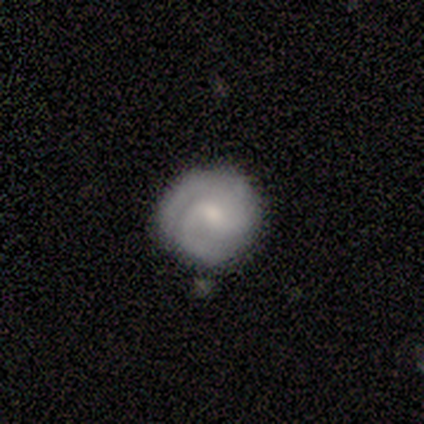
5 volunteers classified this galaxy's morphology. This appears to be a featured or disk galaxy (60%) with a weak bar (67%), 2 (67%) medium (67%) spiral arms (100%) and a small central bulge (67%). Merging: none (50%, tied with minor disturbance).